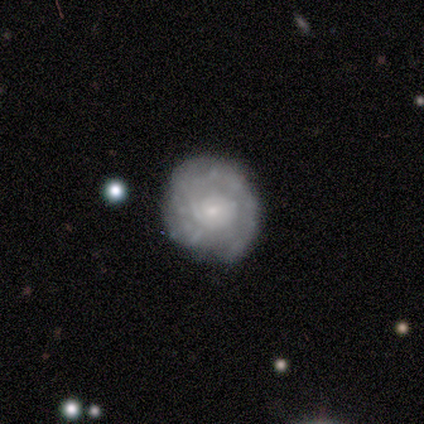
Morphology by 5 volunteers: Smooth or featured? 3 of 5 (60%) said featured or disk. Edge-on disk? 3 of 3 (100%) said no. Bar? 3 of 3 (100%) said no. Spiral arms? 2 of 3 (67%) said yes. Spiral winding? 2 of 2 (100%) said tight. Spiral arm count? 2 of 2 (100%) said 1. Bulge size? 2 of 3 (67%) said small. Merging? 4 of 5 (80%) said none.